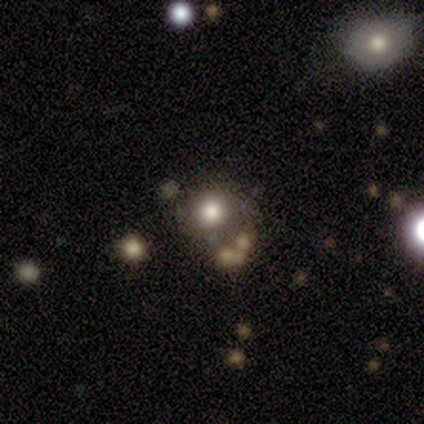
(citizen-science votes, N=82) Smooth or featured: smooth — 55% (star or artifact — 33%)
How rounded: round — 96% (in between — 4%)
Merging: none — 69% (minor disturbance — 13%)